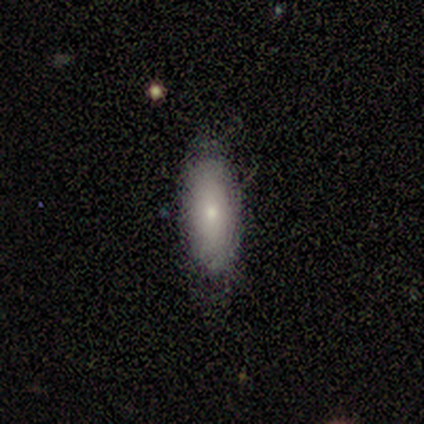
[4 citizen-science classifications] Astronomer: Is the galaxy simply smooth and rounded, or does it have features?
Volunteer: smooth — 75%.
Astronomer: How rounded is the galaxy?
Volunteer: cigar-shaped — 67%.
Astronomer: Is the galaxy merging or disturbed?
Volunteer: none — 67%.